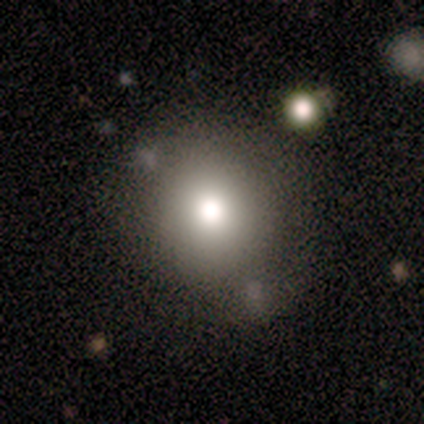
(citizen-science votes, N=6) Morphology: type=smooth (67%); roundness=round (100%); merging=none (67%).